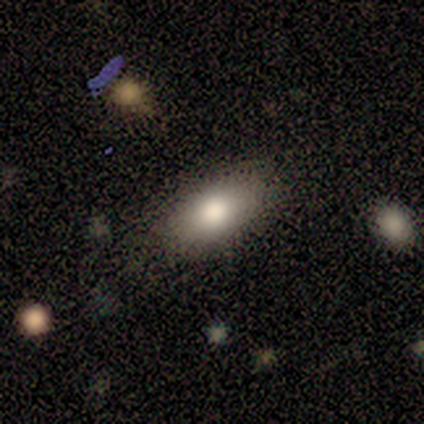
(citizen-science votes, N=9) smooth_or_featured: smooth (p=0.67) [alt: star or artifact p=0.33]
how_rounded: in between (p=0.83) [alt: round p=0.17]
merging: none (p=1.00)